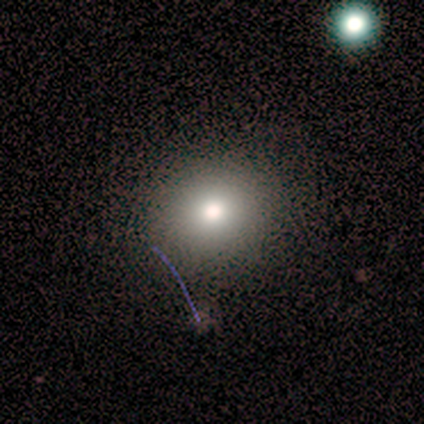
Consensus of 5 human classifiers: smooth 80%, star or artifact 20%, featured or disk 0%. Down the decision tree: how rounded — round (100%); merging — none (100%).